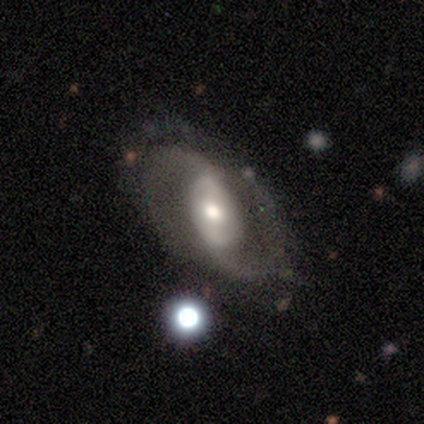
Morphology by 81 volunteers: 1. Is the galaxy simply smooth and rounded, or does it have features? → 88% featured or disk, 7% star or artifact, 5% smooth.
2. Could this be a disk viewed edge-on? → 93% no, 7% yes.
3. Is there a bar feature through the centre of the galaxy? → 41% weak, 32% strong, 27% no.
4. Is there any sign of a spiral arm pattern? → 92% yes, 8% no.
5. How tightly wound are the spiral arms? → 44% loose, 43% medium, 13% tight.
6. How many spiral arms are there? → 92% 2, 3% can't tell, 2% 1, 2% 3, 2% 4, 0% more than 4.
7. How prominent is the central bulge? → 70% moderate, 18% small, 8% large, 3% dominant, 2% none.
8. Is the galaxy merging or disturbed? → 64% none, 21% minor disturbance, 13% major disturbance, 1% merger.